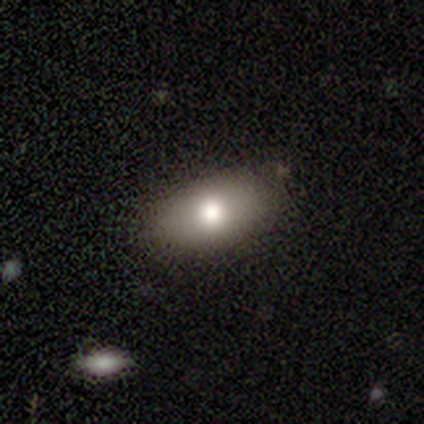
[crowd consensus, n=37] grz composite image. It shows a smooth galaxy with no disk features (76%) that is in between round and cigar-shaped (96%). Merging: none (91%).